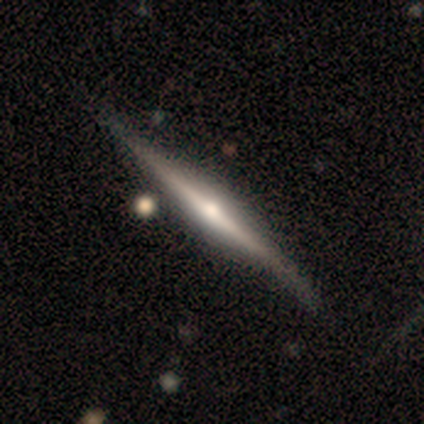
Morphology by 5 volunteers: Smooth or featured? featured or disk (100%)
Edge-on disk? yes (100%)
Edge-on bulge? rounded (100%)
Merging? none (40%, tied with minor disturbance)